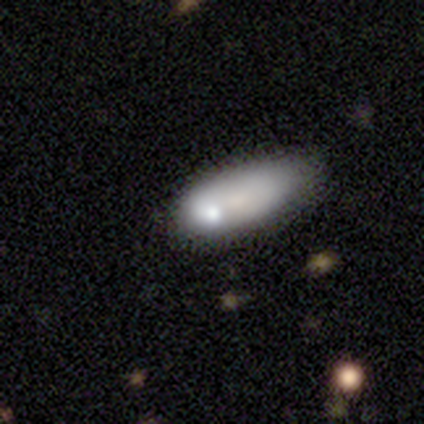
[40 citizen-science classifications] Q: Smooth or featured?
A: smooth (65%); runner-up: featured or disk (25%)
Q: How rounded?
A: in between (85%); runner-up: cigar-shaped (15%)
Q: Merging?
A: none (39%); runner-up: minor disturbance (28%)